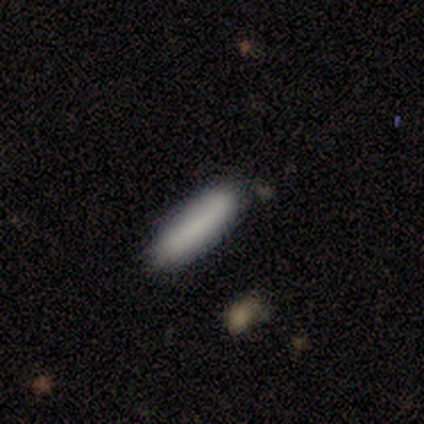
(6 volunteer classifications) Volunteers were most divided on "how rounded": cigar-shaped: 67%, in between: 33%, round: 0%. More confident: smooth or featured — smooth (100%); merging — none (100%).